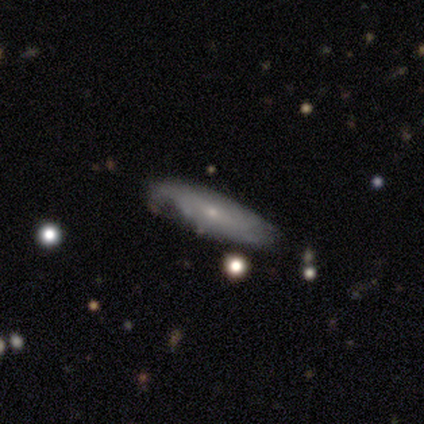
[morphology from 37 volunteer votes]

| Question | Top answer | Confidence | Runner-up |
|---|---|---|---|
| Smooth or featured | featured or disk | 54% | smooth (46%) |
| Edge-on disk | no | 75% | yes (25%) |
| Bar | no | 80% | weak (20%) |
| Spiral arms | yes | 67% | no (33%) |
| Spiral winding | tight | 40% | tied: medium (40%) |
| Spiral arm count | can't tell | 80% | 2 (10%) |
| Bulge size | small | 93% | moderate (7%) |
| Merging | none | 65% | minor disturbance (22%) |